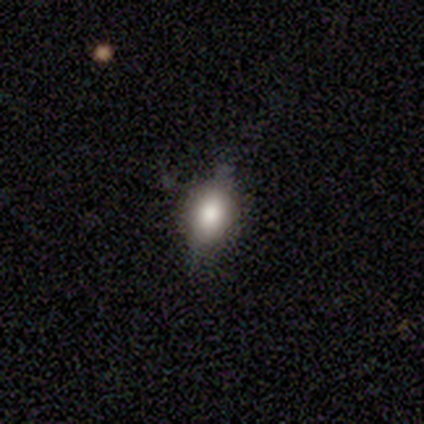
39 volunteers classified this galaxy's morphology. Volunteers were most divided on "merging": none: 65%, minor disturbance: 35%, major disturbance: 0%, merger: 0%. More confident: how rounded — in between (73%); smooth or featured — smooth (67%).